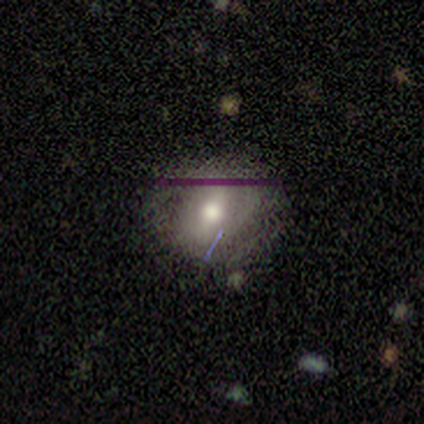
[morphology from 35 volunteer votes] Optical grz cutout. It shows a smooth galaxy with no disk features (43%, tied with featured or disk) that is round (73%). Merging: none (67%).